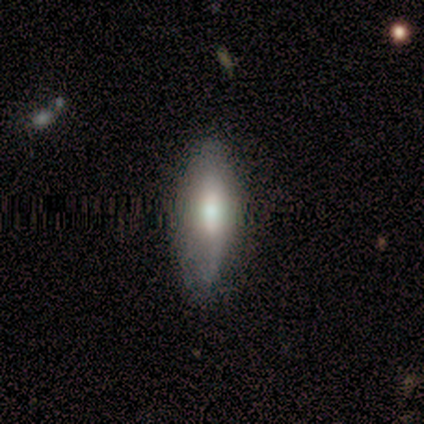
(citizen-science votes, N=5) A smooth galaxy with no disk features (80%) that is in between round and cigar-shaped (75%).

Vote fractions:
- Smooth or featured? smooth: 80% / featured or disk: 20% / star or artifact: 0%
- How rounded? in between: 75% / cigar-shaped: 25% / round: 0%
- Merging? none: 80% / minor disturbance: 20% / major disturbance: 0% / merger: 0%